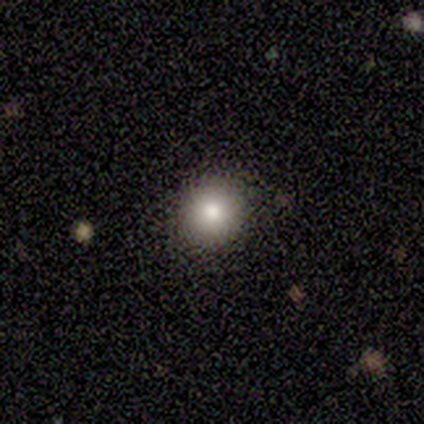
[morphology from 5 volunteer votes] Smooth or featured: smooth — 80% (featured or disk — 20%)
How rounded: round — 75% (in between — 25%)
Merging: none — 80% (minor disturbance — 20%)